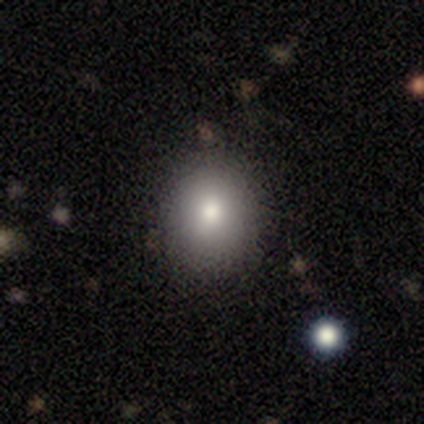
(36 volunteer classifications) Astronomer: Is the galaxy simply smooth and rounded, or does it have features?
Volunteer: smooth — 78%.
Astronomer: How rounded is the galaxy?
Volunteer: round — 82%.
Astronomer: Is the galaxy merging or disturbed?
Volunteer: none — 91%.